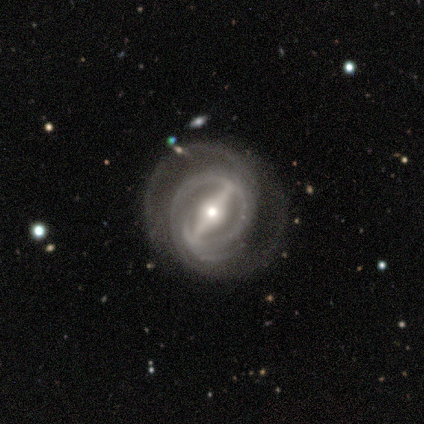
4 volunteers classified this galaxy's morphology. Volunteers were most divided on "spiral winding": tight: 75%, medium: 25%, loose: 0%. More confident: smooth or featured — featured or disk (100%); edge-on disk — no (100%); bar — strong (100%); spiral arms — yes (100%); bulge size — moderate (100%); merging — none (100%); spiral arm count — 2 (75%).